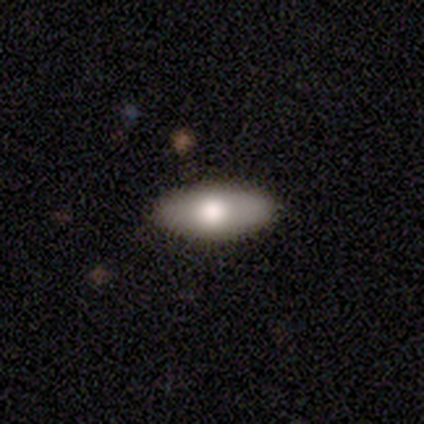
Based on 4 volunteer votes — Morphology: type=smooth (50%); roundness=in between (100%); merging=none (100%).